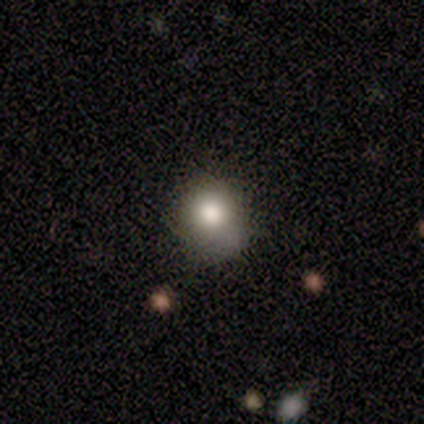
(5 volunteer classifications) Smooth or featured? 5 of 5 (100%) said smooth. How rounded? 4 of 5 (80%) said round. Merging? 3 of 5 (60%) said none.